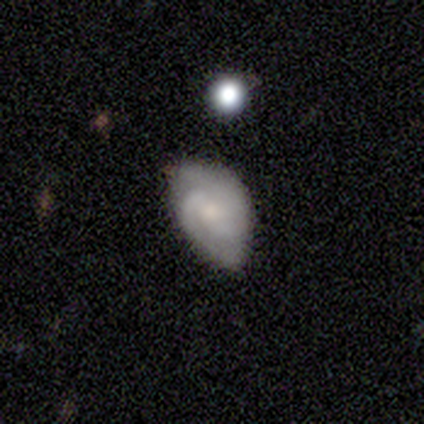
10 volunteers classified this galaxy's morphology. Smooth or featured? smooth (60%)
How rounded? in between (100%)
Merging? minor disturbance (70%)